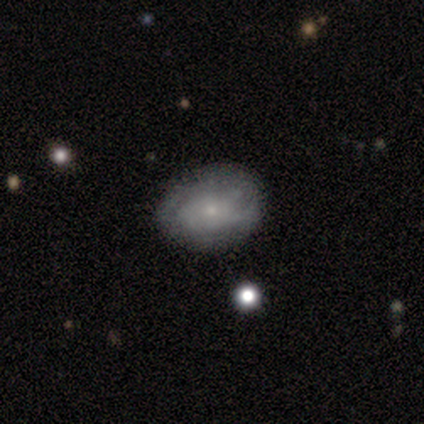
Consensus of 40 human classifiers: Smooth or featured?
  - smooth: 50% * (tied)
  - featured or disk: 50% * (tied)
  - star or artifact: 0%
How rounded?
  - in between: 60% *
  - round: 40%
  - cigar-shaped: 0%
Merging?
  - none: 80% *
  - minor disturbance: 15%
  - major disturbance: 5%
  - merger: 0%